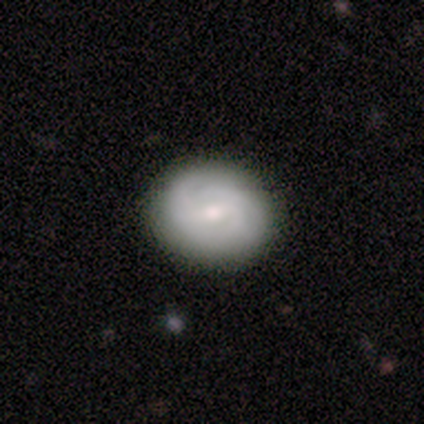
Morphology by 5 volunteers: A smooth galaxy with no disk features (60%) that is round (67%).

Vote fractions:
- Smooth or featured? smooth: 60% / featured or disk: 40% / star or artifact: 0%
- How rounded? round: 67% / in between: 33% / cigar-shaped: 0%
- Merging? none: 100% / minor disturbance: 0% / major disturbance: 0% / merger: 0%